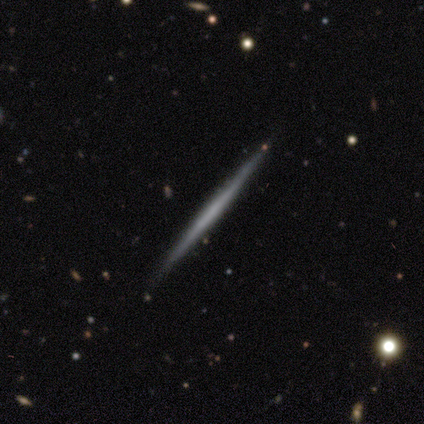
Overall: featured or disk (79%). Edge-on disk: yes (100%). Edge-on bulge: none (94%). Merging: none (72%).